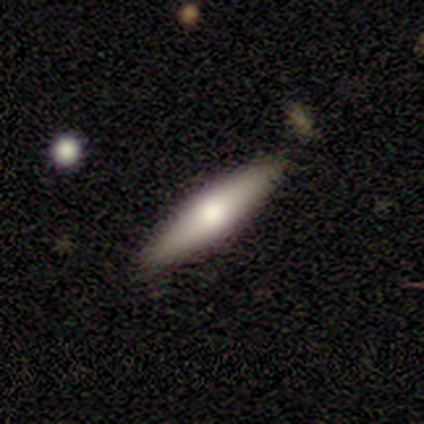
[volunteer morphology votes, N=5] A smooth galaxy with no disk features (80%) that is cigar-shaped (75%).

Vote fractions:
- Smooth or featured? smooth: 80% / featured or disk: 20% / star or artifact: 0%
- How rounded? cigar-shaped: 75% / in between: 25% / round: 0%
- Merging? none: 80% / minor disturbance: 20% / major disturbance: 0% / merger: 0%